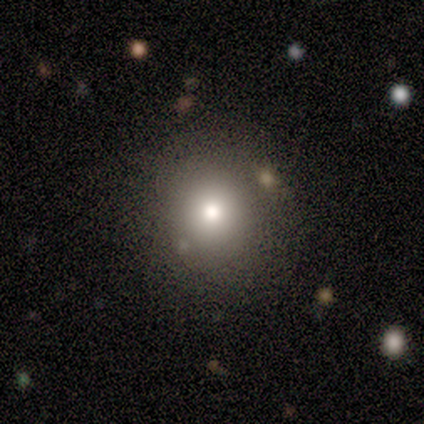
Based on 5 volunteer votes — Smooth or featured?
  - smooth: 100% *
  - featured or disk: 0%
  - star or artifact: 0%
How rounded?
  - round: 100% *
  - in between: 0%
  - cigar-shaped: 0%
Merging?
  - none: 60% *
  - minor disturbance: 40%
  - major disturbance: 0%
  - merger: 0%